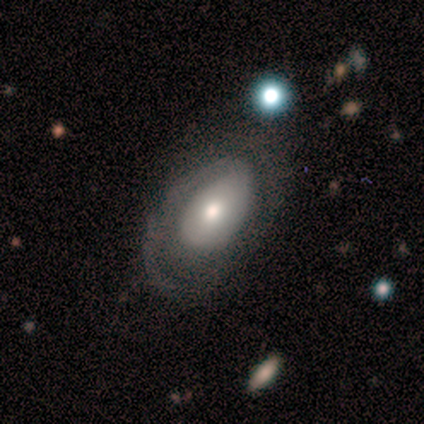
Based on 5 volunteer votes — Smooth or featured? featured or disk (80%)
Edge-on disk? no (100%)
Bar? no (75%)
Spiral arms? yes (100%)
Spiral winding? medium (50%)
Spiral arm count? 1 (75%)
Bulge size? moderate (75%)
Merging? none (80%)